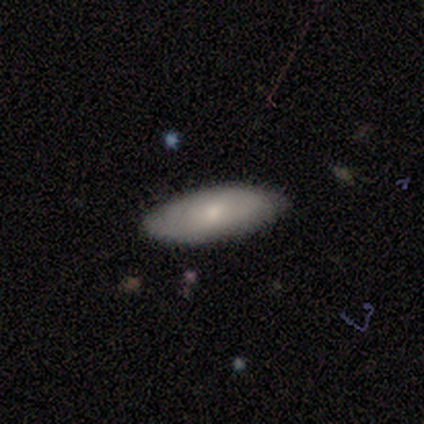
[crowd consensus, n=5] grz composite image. It shows a smooth galaxy with no disk features (80%) that is in between round and cigar-shaped (75%). Merging: none (100%).